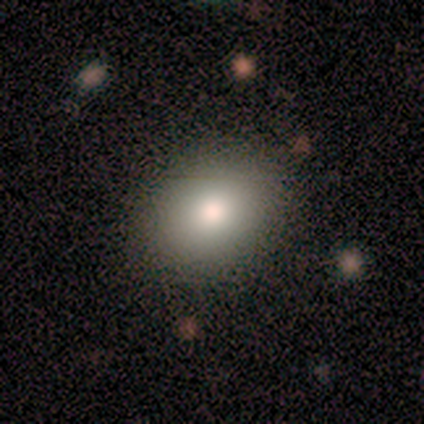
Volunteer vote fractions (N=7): A smooth galaxy with no disk features (57%) that is round (50%, tied with in between).

Vote fractions:
- Smooth or featured? smooth: 57% / featured or disk: 29% / star or artifact: 14%
- How rounded? round: 50% (tied) / in between: 50% (tied) / cigar-shaped: 0%
- Merging? none: 83% / minor disturbance: 17% / major disturbance: 0% / merger: 0%